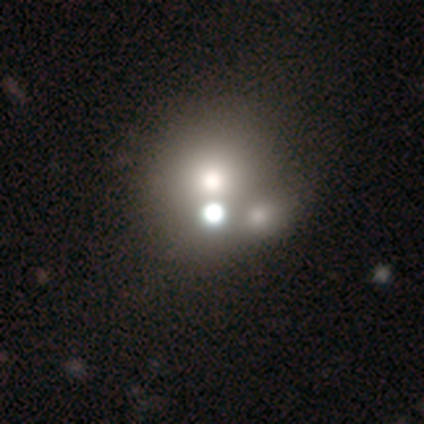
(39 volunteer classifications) A smooth galaxy with no disk features (54%) that is round (86%).

Vote fractions:
- Smooth or featured? smooth: 54% / featured or disk: 23% / star or artifact: 23%
- How rounded? round: 86% / in between: 14% / cigar-shaped: 0%
- Merging? merger: 63% / none: 20% / major disturbance: 7% / minor disturbance: 3%